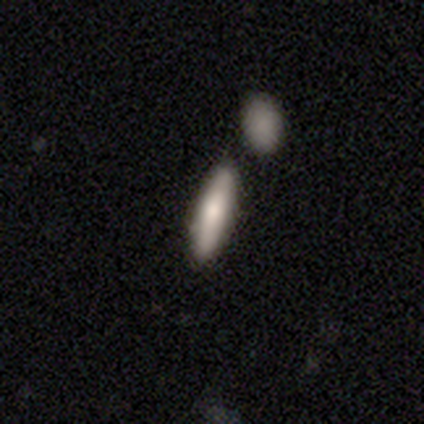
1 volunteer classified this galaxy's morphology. A smooth galaxy with no disk features (100%) that is in between round and cigar-shaped (100%).

Vote fractions:
- Smooth or featured? smooth: 100% / featured or disk: 0% / star or artifact: 0%
- How rounded? in between: 100% / round: 0% / cigar-shaped: 0%
- Merging? none: 100% / minor disturbance: 0% / major disturbance: 0% / merger: 0%